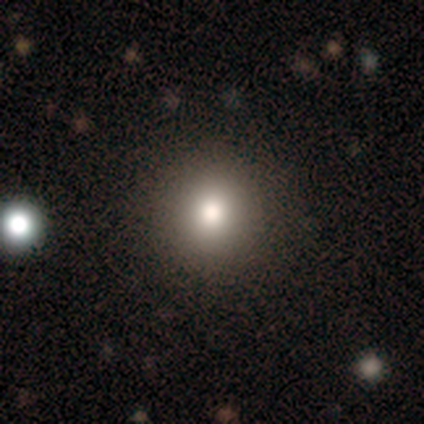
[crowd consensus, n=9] Overall: smooth (89%). How rounded: round (100%). Merging: none (100%).